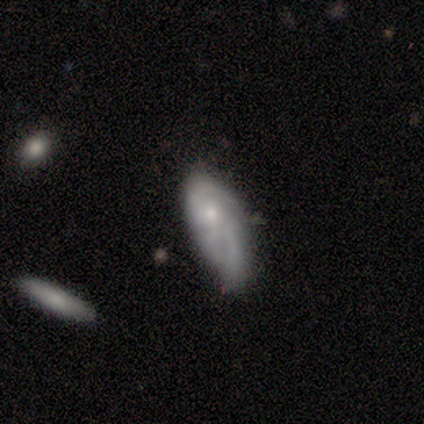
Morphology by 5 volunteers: smooth_or_featured: smooth (p=1.00)
how_rounded: in between (p=0.80) [alt: cigar-shaped p=0.20]
merging: none (p=0.60) [alt: minor disturbance p=0.20]